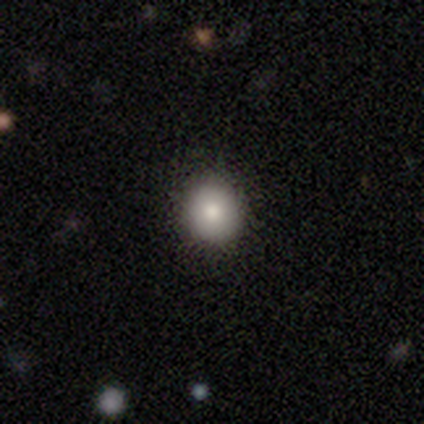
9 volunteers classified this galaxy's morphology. smooth 78%, featured or disk 22%, star or artifact 0%. Down the decision tree: how rounded — round (71%); merging — none (67%).